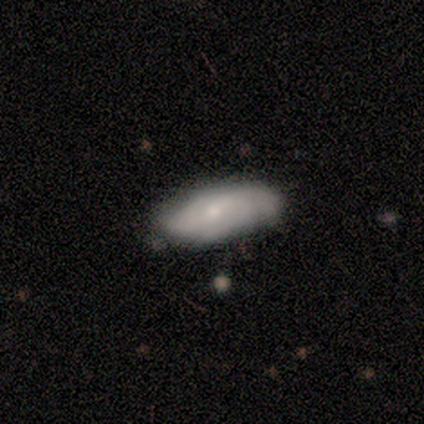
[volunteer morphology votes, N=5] Overall: smooth (60%; featured or disk 40%). How rounded: in between (67%; cigar-shaped 33%). Merging: minor disturbance (60%; none 40%).